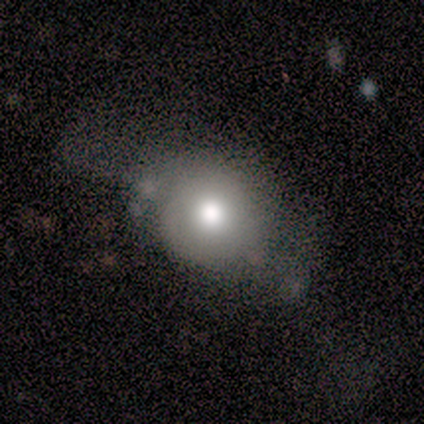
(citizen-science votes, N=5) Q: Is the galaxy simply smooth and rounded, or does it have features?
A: smooth — 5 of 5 (100%).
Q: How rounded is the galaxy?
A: round — 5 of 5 (100%).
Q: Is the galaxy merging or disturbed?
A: none — 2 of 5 (40%, tied with major disturbance).